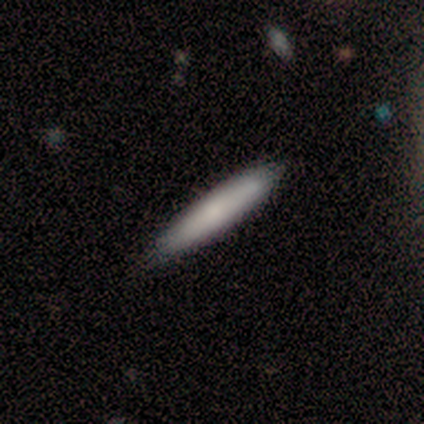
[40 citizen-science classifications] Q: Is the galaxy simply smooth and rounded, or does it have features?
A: smooth — 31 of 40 (78%).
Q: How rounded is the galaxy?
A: cigar-shaped — 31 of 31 (100%).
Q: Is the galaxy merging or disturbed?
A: none — 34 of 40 (85%).